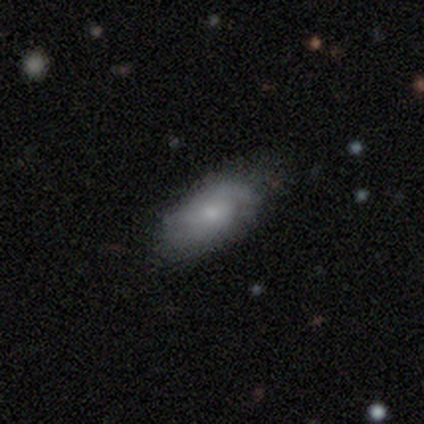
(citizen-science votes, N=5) A smooth galaxy with no disk features (60%) that is in between round and cigar-shaped (100%). Merging: none (60%).